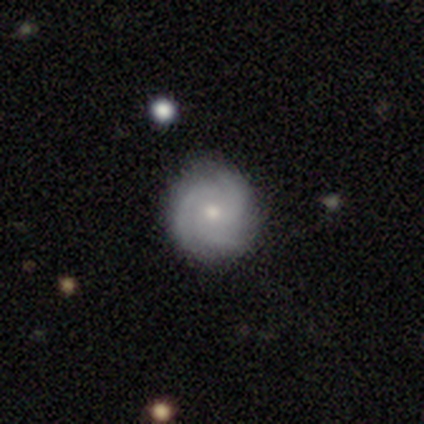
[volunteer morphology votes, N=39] Q: Smooth or featured?
A: featured or disk (77%); runner-up: smooth (15%)
Q: Edge-on disk?
A: no (100%)
Q: Bar?
A: no (83%); runner-up: weak (17%)
Q: Spiral arms?
A: yes (100%)
Q: Spiral winding?
A: tight (53%); runner-up: medium (43%)
Q: Spiral arm count?
A: 3 (83%); runner-up: 2 (10%)
Q: Bulge size?
A: small (50%); runner-up: moderate (43%)
Q: Merging?
A: none (92%); runner-up: minor disturbance (6%)